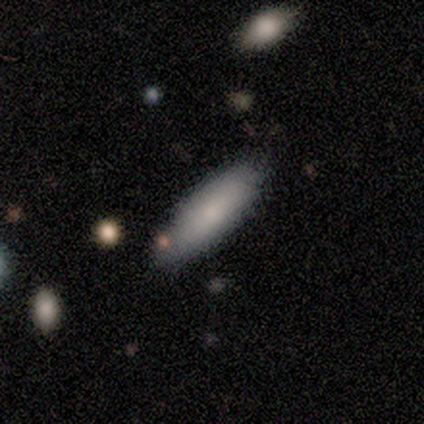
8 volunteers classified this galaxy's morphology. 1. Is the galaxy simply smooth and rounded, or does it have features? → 88% smooth, 12% star or artifact, 0% featured or disk.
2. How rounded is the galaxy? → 57% in between, 43% cigar-shaped, 0% round.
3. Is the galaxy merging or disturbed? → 100% none, 0% minor disturbance, 0% major disturbance, 0% merger.